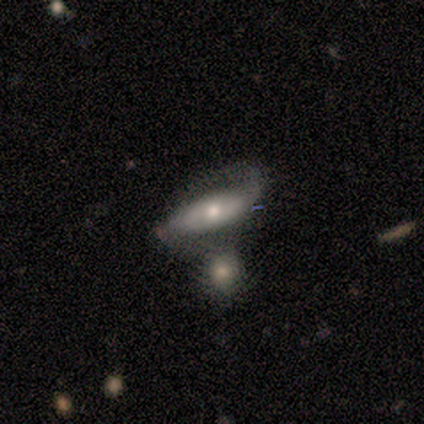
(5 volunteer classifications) Smooth or featured? featured or disk (60%)
Edge-on disk? no (67%)
Bar? no (100%)
Spiral arms? yes (100%)
Spiral winding? loose (100%)
Spiral arm count? 2 (100%)
Bulge size? small (100%)
Merging? merger (50%)